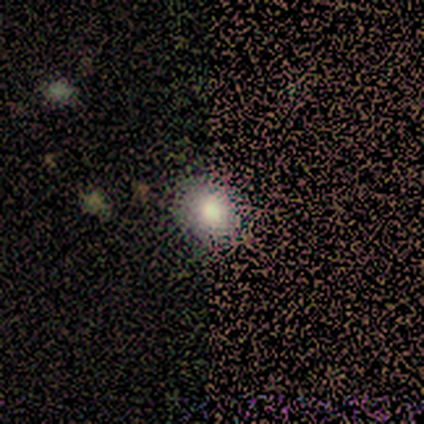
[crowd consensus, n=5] Smooth or featured? 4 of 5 (80%) said smooth. How rounded? 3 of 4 (75%) said in between. Merging? 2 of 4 (50%) said major disturbance.